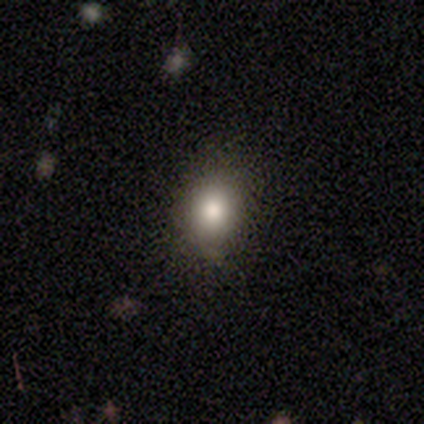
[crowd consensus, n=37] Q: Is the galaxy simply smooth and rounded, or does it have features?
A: smooth — 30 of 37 (81%).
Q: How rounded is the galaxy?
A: round — 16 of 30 (53%).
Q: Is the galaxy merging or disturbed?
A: none — 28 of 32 (88%).